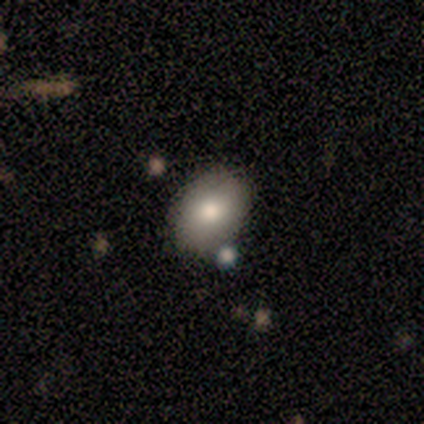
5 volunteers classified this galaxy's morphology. This is likely a featured or disk galaxy (60%). It is clearly not viewed edge-on (100%). Bar: likely no (67%). Spiral arm pattern: clearly no (100%). Central bulge: likely large (67%). Merging: clearly none (100%).